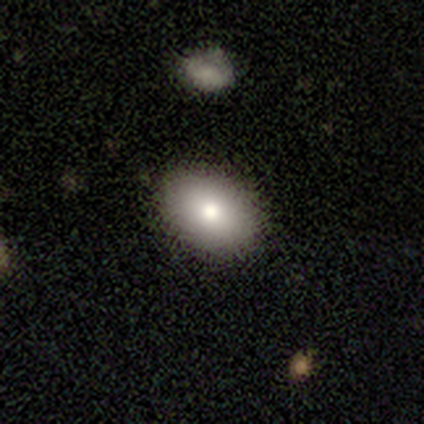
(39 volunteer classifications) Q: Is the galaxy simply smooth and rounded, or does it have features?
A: smooth — 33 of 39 (85%).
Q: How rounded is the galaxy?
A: in between — 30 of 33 (91%).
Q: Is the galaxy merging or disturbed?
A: none — 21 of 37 (57%).